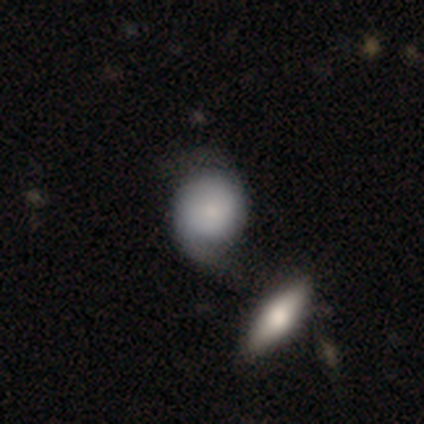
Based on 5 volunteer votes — Smooth or featured: featured or disk — 80% (star or artifact — 20%)
Edge-on disk: no — 75% (yes — 25%)
Bar: no — 100%
Spiral arms: yes — 100%
Spiral winding: medium — 67% (tight — 33%)
Spiral arm count: 2 — 100%
Bulge size: moderate — 33% (tied with small — 33%; none — 33%)
Merging: none — 75% (merger — 25%)